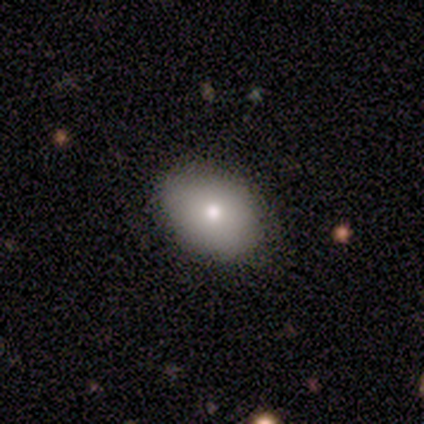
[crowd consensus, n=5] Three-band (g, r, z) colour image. It shows a smooth galaxy with no disk features (100%) that is in between round and cigar-shaped (80%). Merging: none (100%).